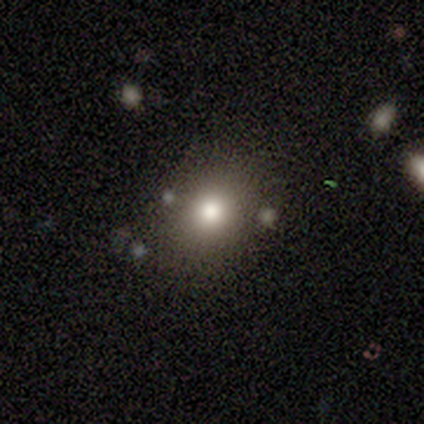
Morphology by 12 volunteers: This is likely a smooth galaxy (75%). How rounded: likely round (67%). Merging: clearly none (90%).